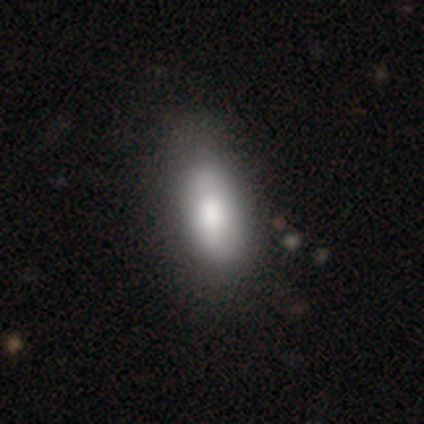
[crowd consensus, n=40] smooth 78%, featured or disk 18%, star or artifact 5%. Down the decision tree: how rounded — in between (84%); merging — none (42%).